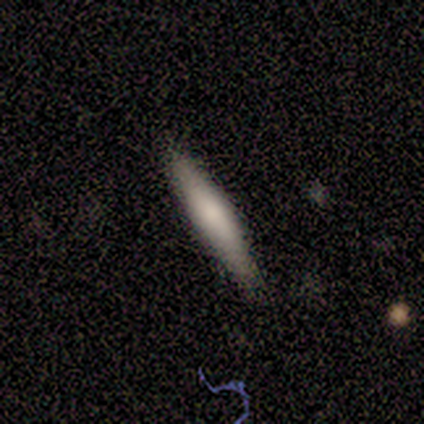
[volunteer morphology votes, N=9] A smooth galaxy with no disk features (89%) that is cigar-shaped (100%). Merging: none (89%).